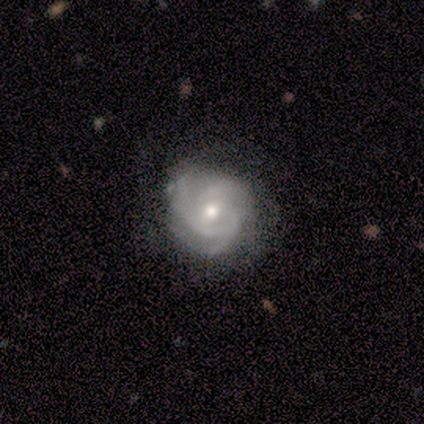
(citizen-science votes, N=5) Smooth or featured? featured or disk (100%)
Edge-on disk? no (100%)
Bar? no (80%)
Spiral arms? yes (100%)
Spiral winding? tight (80%)
Spiral arm count? 3 (100%)
Bulge size? small (60%)
Merging? none (60%)